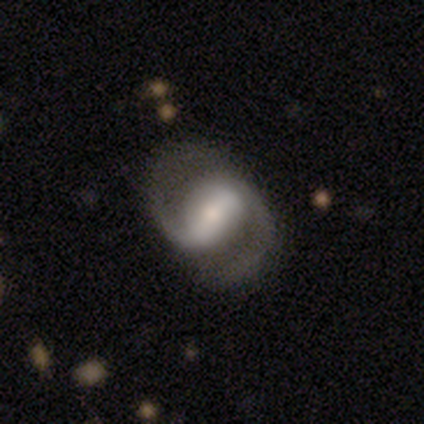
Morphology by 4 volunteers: Volunteers were most divided on "bar" (2-way tie): strong: 50%, weak: 50%, no: 0%; "spiral winding" (2-way tie): medium: 50%, loose: 50%, tight: 0%; "bulge size" (2-way tie): moderate: 50%, small: 50%, dominant: 0%, large: 0%, none: 0%. More confident: smooth or featured — featured or disk (100%); edge-on disk — no (100%); spiral arms — yes (100%); spiral arm count — 2 (100%); merging — none (75%).